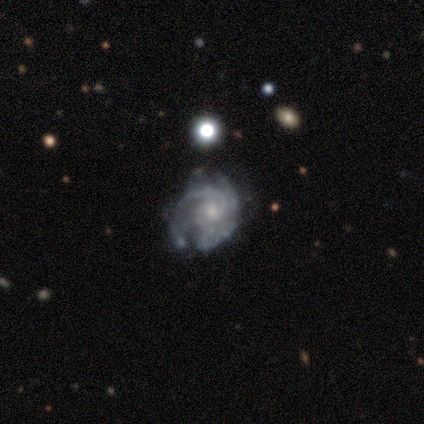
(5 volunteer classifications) This is clearly a featured or disk galaxy (80%). It is clearly not viewed edge-on (100%). Bar: likely no (75%). Spiral arm pattern: clearly yes (100%). Spiral arm count: possibly 4 (50%). Spiral winding: likely tight (75%). Central bulge: possibly small (50%). Merging: marginally none (40%, tied with major disturbance).